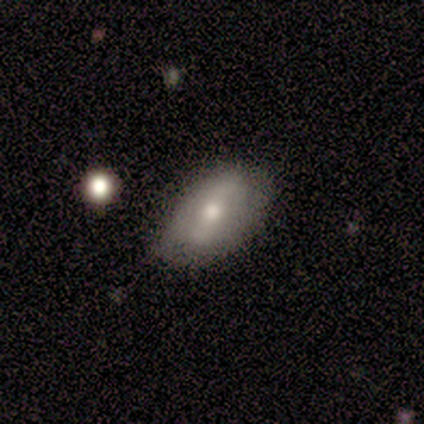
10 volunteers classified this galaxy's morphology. A featured or disk galaxy (50%) with no bar (50%), no spiral arms (100%) and a moderate central bulge (75%). Merging: none (89%).